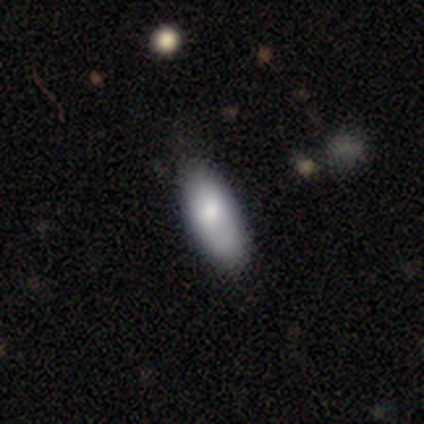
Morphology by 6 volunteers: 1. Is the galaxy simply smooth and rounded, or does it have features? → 100% smooth, 0% featured or disk, 0% star or artifact.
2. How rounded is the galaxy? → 67% in between, 33% cigar-shaped, 0% round.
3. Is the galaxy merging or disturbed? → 83% none, 17% minor disturbance, 0% major disturbance, 0% merger.